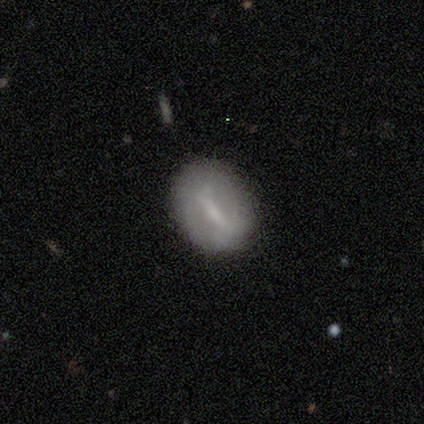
smooth_or_featured: featured or disk (p=0.60) [alt: smooth p=0.40]
disk_edge_on: no (p=1.00)
bar: strong (p=0.67) [alt: weak p=0.33]
has_spiral_arms: no (p=0.67) [alt: yes p=0.33]
bulge_size: moderate (p=0.33) [tied with: small p=0.33, none p=0.33]
merging: minor disturbance (p=0.60) [alt: none p=0.40]